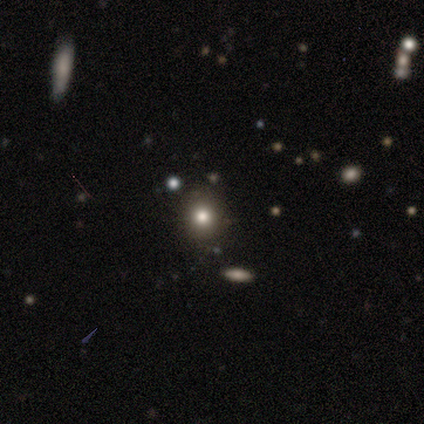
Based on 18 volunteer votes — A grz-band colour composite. It shows a smooth galaxy with no disk features (61%) that is round (82%). Merging: none (77%).